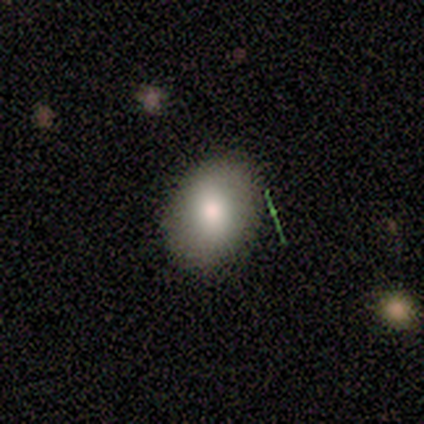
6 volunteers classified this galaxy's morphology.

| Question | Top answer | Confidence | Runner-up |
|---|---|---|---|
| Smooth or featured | smooth | 83% | featured or disk (17%) |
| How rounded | in between | 60% | round (40%) |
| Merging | none | 83% | minor disturbance (17%) |